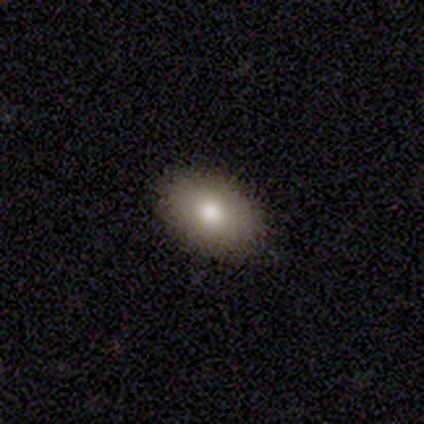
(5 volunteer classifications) smooth-or-featured: smooth: 80% | featured or disk: 20% | star or artifact: 0%
  how-rounded: in between: 100% | round: 0% | cigar-shaped: 0%
  merging: none: 100% | minor disturbance: 0% | major disturbance: 0% | merger: 0%